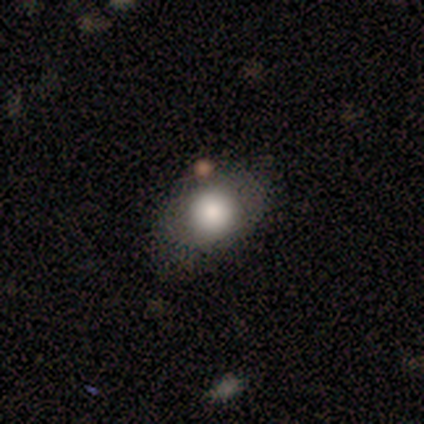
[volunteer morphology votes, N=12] type=smooth (75%); roundness=round (56%); merging=none (45%, tied with minor disturbance).